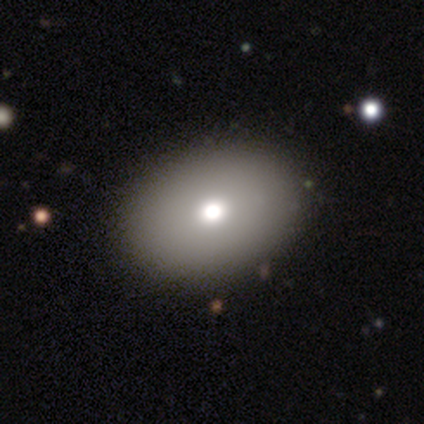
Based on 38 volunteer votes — Volunteers were most divided on "how rounded": in between: 74%, round: 26%, cigar-shaped: 0%. More confident: merging — none (97%); smooth or featured — smooth (71%).